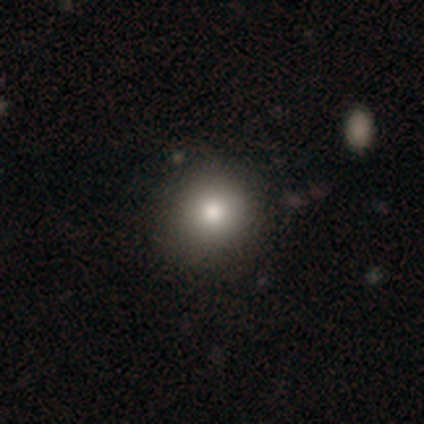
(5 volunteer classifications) Smooth or featured: smooth — 80% (featured or disk — 20%)
How rounded: round — 100%
Merging: none — 80% (minor disturbance — 20%)